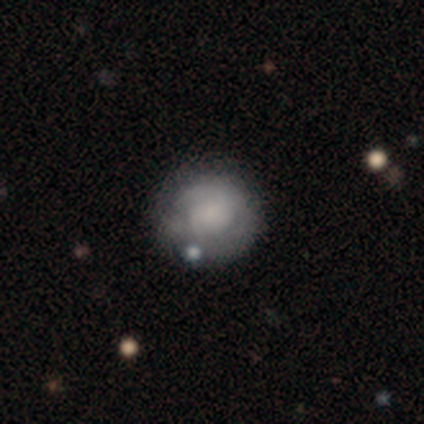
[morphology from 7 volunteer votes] Overall: featured or disk (57%; smooth 43%). Edge-on disk: no (100%). Bar: no (100%). Spiral arms: yes (75%). Spiral arm count: 2 (67%; can't tell 33%). Spiral winding: tight (67%; loose 33%). Bulge size: none (75%). Merging: none (71%).